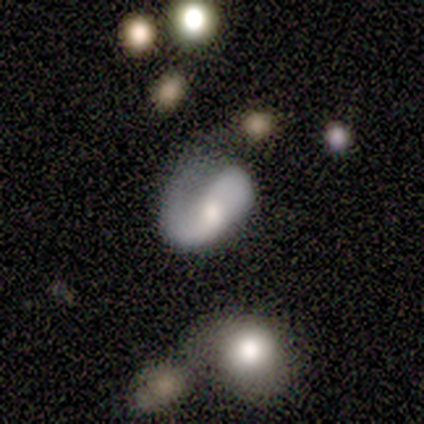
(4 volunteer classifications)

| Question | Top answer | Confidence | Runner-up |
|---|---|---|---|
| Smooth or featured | featured or disk | 50% | smooth (25%) |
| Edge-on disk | no | 100% | — |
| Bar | no | 100% | — |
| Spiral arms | yes | 100% | — |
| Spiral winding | tight | 50% | tied: loose (50%) |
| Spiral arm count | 2 | 50% | tied: can't tell (50%) |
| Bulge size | moderate | 100% | — |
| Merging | none | 33% | tied: minor disturbance (33%), major disturbance (33%) |